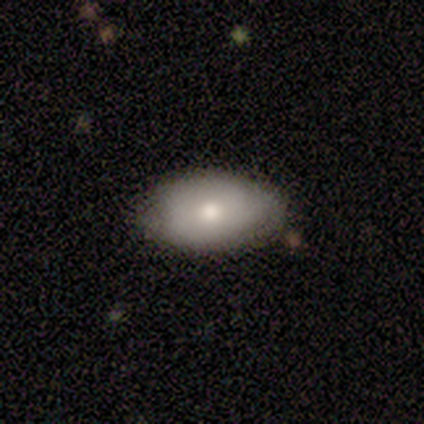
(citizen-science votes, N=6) Smooth or featured: smooth — 50% (tied with featured or disk — 50%)
How rounded: in between — 100%
Merging: none — 67% (minor disturbance — 33%)